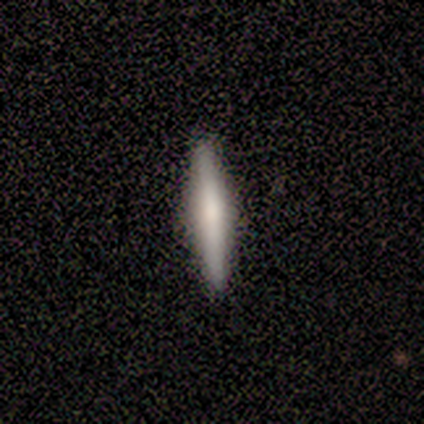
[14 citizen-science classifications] smooth_or_featured: smooth (p=0.71) [alt: featured or disk p=0.29]
how_rounded: cigar-shaped (p=1.00)
merging: none (p=1.00)